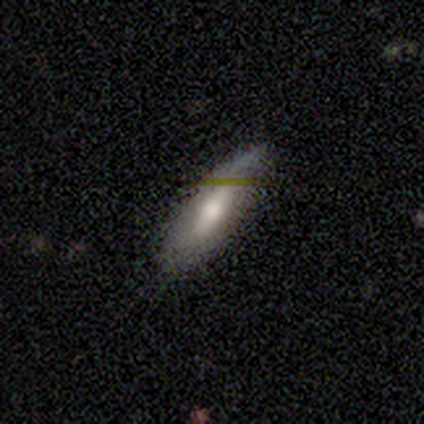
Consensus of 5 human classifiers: Smooth or featured? 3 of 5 (60%) said featured or disk. Edge-on disk? 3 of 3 (100%) said no. Bar? 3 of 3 (100%) said no. Spiral arms? 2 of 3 (67%) said no. Bulge size? 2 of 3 (67%) said moderate. Merging? 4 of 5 (80%) said none.